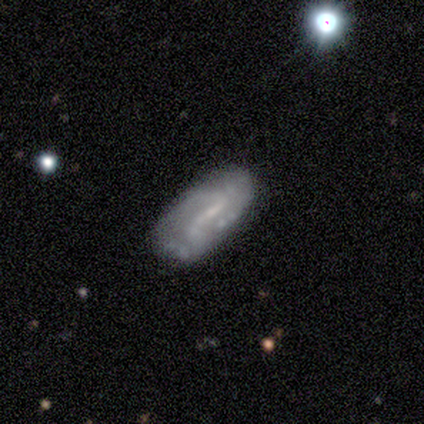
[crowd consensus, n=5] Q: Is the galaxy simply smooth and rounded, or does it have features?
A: featured or disk — 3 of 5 (60%).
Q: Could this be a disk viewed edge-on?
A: no — 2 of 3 (67%).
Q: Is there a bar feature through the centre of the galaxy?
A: strong — 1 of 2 (50%, tied with weak).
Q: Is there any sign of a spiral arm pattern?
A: yes — 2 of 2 (100%).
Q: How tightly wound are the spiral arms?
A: tight — 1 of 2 (50%, tied with medium).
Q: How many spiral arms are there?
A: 3 — 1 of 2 (50%, tied with can't tell).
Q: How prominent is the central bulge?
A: small — 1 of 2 (50%, tied with none).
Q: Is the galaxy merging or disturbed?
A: none — 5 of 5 (100%).